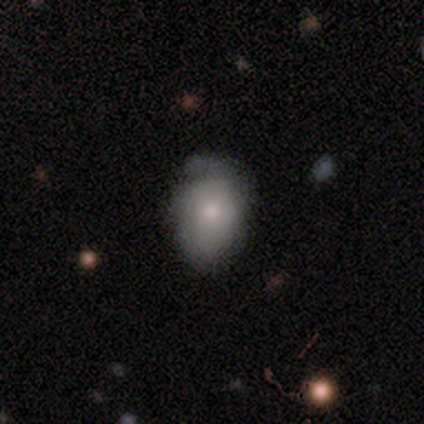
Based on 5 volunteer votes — Morphology: type=featured or disk (60%); edge-on=no (100%); bar=no (100%); spiral arms=yes (100%); winding=tight (33%, tied with medium and loose); arm count=can't tell (67%); bulge=moderate (67%); merging=none (80%).